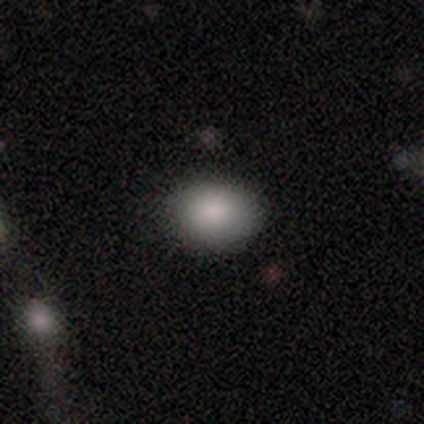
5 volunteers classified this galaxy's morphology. Smooth or featured?
  - smooth: 80% *
  - star or artifact: 20%
  - featured or disk: 0%
How rounded?
  - in between: 75% *
  - round: 25%
  - cigar-shaped: 0%
Merging?
  - none: 100% *
  - minor disturbance: 0%
  - major disturbance: 0%
  - merger: 0%